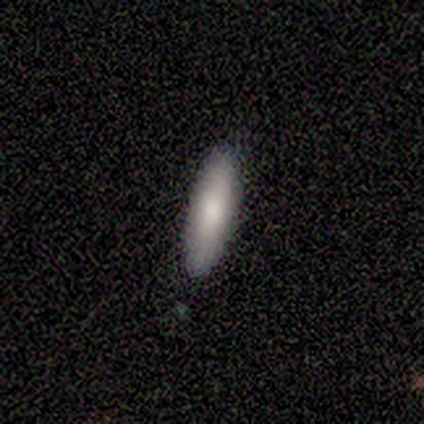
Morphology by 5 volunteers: type=smooth (100%); roundness=cigar-shaped (60%); merging=none (100%).